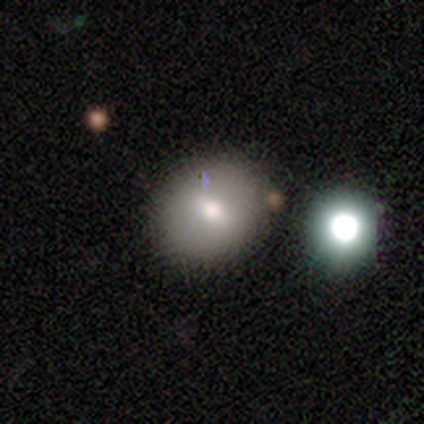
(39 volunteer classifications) This is likely a smooth galaxy (67%). How rounded: possibly round (58%). Merging: likely none (75%).